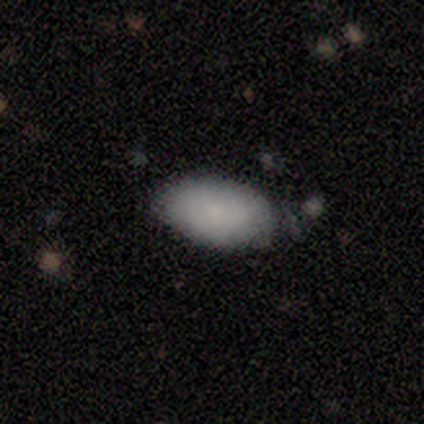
Q: Smooth or featured?
A: smooth (100%)
Q: How rounded?
A: in between (100%)
Q: Merging?
A: none (100%)